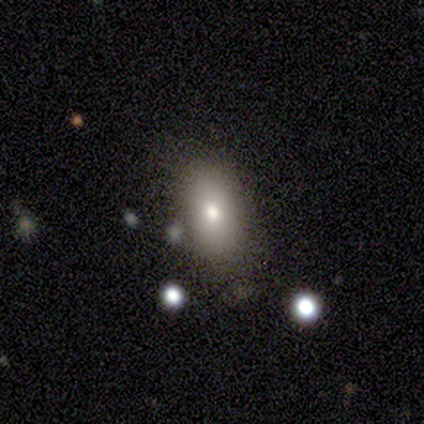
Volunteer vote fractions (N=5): This appears to be a featured or disk galaxy (60%) with no bar (100%), no spiral arms (100%) and a moderate central bulge (67%). Merging: none (40%, tied with merger).